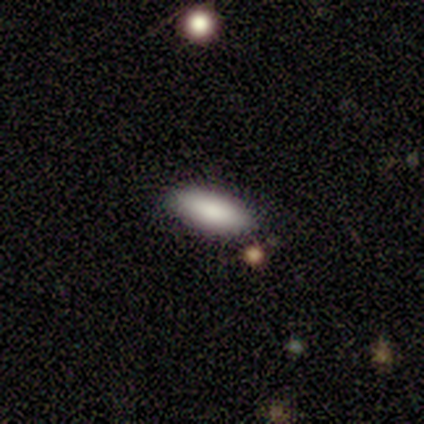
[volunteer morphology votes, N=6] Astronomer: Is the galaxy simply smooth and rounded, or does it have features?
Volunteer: smooth — 100%.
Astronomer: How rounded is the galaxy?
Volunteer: in between — 50%, tied with cigar-shaped at 50%.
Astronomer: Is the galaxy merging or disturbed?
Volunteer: none — 83%.